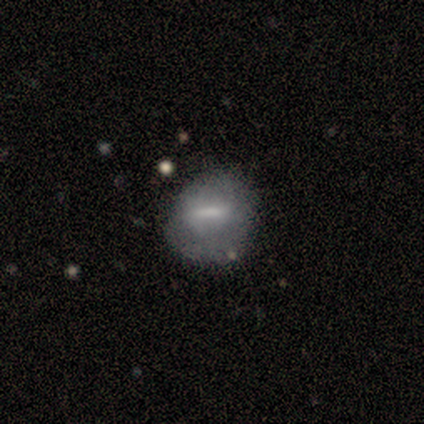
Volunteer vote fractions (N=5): smooth-or-featured: smooth: 60% | featured or disk: 20% | star or artifact: 20%
  how-rounded: round: 67% | in between: 33% | cigar-shaped: 0%
  merging: none: 100% | minor disturbance: 0% | major disturbance: 0% | merger: 0%